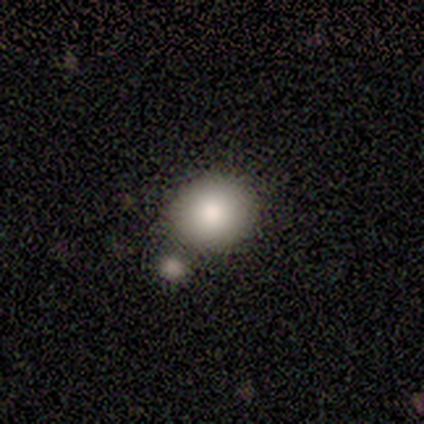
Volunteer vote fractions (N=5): Smooth or featured? 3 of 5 (60%) said smooth. How rounded? 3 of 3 (100%) said round. Merging? 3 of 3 (100%) said none.